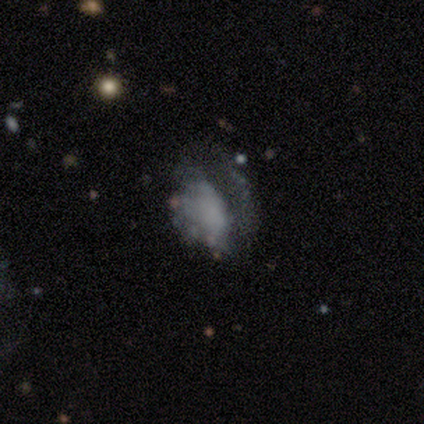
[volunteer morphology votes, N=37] Smooth or featured? featured or disk (59%)
Edge-on disk? no (100%)
Bar? no (100%)
Spiral arms? no (86%)
Bulge size? none (91%)
Merging? major disturbance (71%)